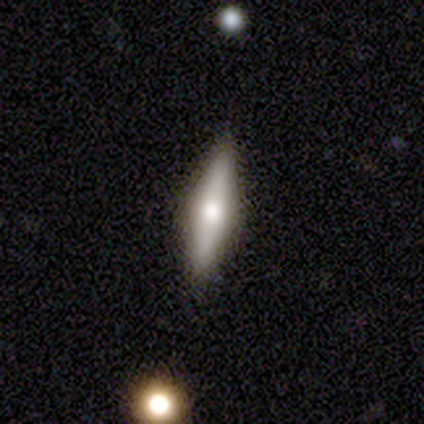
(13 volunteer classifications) A smooth galaxy with no disk features (69%) that is cigar-shaped (89%).

Vote fractions:
- Smooth or featured? smooth: 69% / featured or disk: 31% / star or artifact: 0%
- How rounded? cigar-shaped: 89% / in between: 11% / round: 0%
- Merging? none: 85% / minor disturbance: 15% / major disturbance: 0% / merger: 0%